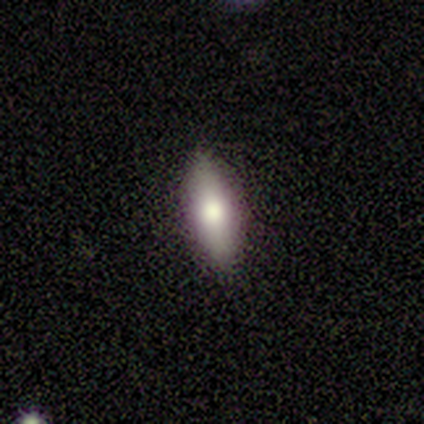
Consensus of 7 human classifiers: Q: Smooth or featured?
A: featured or disk (57%); runner-up: smooth (43%)
Q: Edge-on disk?
A: yes (75%); runner-up: no (25%)
Q: Edge-on bulge?
A: rounded (67%); runner-up: boxy (33%)
Q: Merging?
A: none (100%)